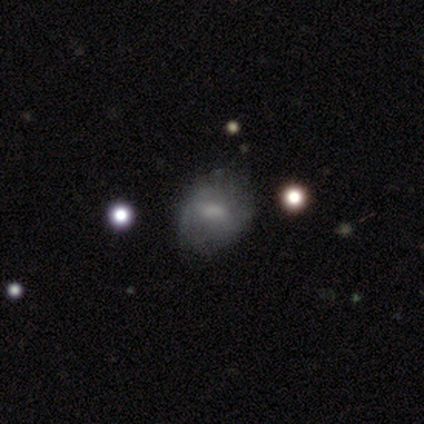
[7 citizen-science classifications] Smooth or featured? 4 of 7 (57%) said smooth. How rounded? 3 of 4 (75%) said in between. Merging? 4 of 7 (57%) said none.